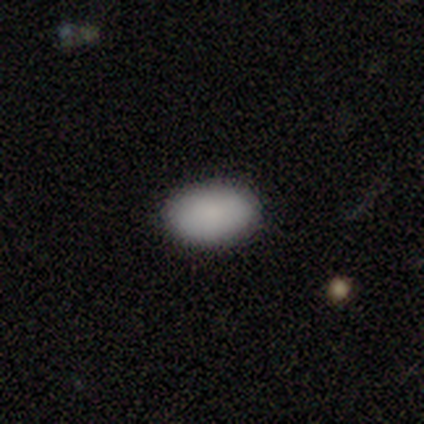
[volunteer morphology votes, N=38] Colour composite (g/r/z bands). It shows a smooth galaxy with no disk features (87%) that is in between round and cigar-shaped (88%). Merging: none (92%).